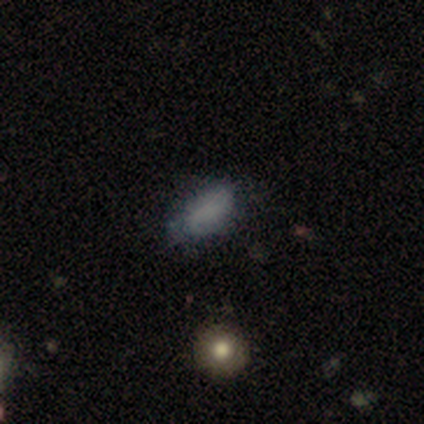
Smooth or featured? 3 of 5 (60%) said smooth. How rounded? 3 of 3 (100%) said in between. Merging? 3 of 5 (60%) said none.